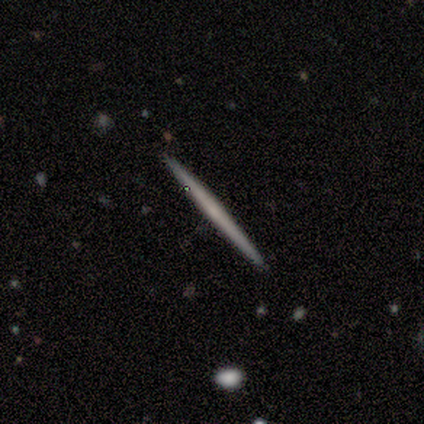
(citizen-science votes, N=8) Q: Smooth or featured?
A: featured or disk (62%); runner-up: smooth (38%)
Q: Edge-on disk?
A: yes (100%)
Q: Edge-on bulge?
A: none (80%); runner-up: rounded (20%)
Q: Merging?
A: none (100%)